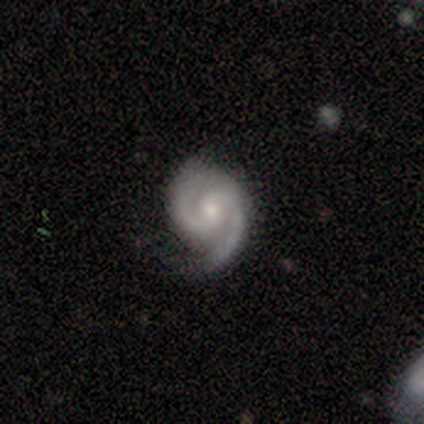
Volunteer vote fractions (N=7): A featured or disk galaxy (100%) with no bar (71%), 2 (86%) tight (57%) spiral arms (100%) and a small central bulge (71%). Merging: none (71%).